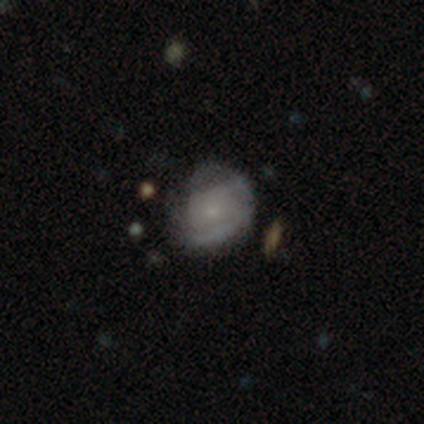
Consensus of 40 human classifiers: Smooth or featured?
  - featured or disk: 50% *
  - smooth: 48%
  - star or artifact: 2%
Edge-on disk?
  - no: 100% *
  - yes: 0%
Bar?
  - no: 85% *
  - weak: 15%
  - strong: 0%
Spiral arms?
  - yes: 80% *
  - no: 20%
Spiral winding?
  - tight: 75% *
  - medium: 25%
  - loose: 0%
Spiral arm count?
  - can't tell: 69% *
  - 2: 19%
  - 3: 12%
  - 1: 0%
  - 4: 0%
  - more than 4: 0%
Bulge size?
  - small: 80% *
  - moderate: 10%
  - large: 5%
  - none: 5%
  - dominant: 0%
Merging?
  - none: 56% *
  - minor disturbance: 36%
  - major disturbance: 5%
  - merger: 3%